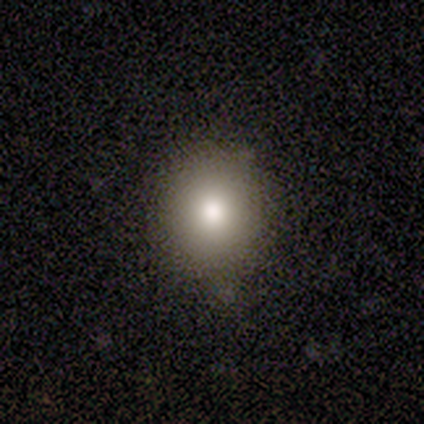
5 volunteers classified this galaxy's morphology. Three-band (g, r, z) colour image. It shows a smooth galaxy with no disk features (80%) that is round (100%). Merging: none (100%).